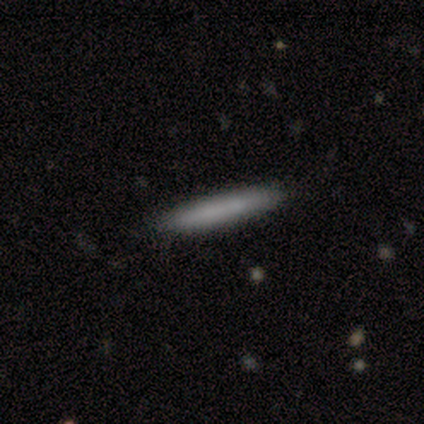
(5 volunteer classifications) smooth-or-featured: smooth: 80% | featured or disk: 20% | star or artifact: 0%
  how-rounded: cigar-shaped: 100% | round: 0% | in between: 0%
  merging: none: 100% | minor disturbance: 0% | major disturbance: 0% | merger: 0%